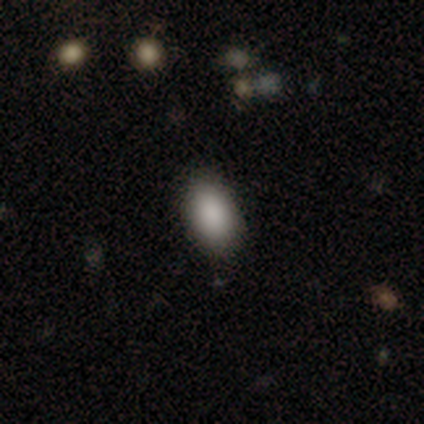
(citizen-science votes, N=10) smooth_or_featured: smooth (p=1.00)
how_rounded: in between (p=0.90) [alt: round p=0.10]
merging: none (p=0.90) [alt: minor disturbance p=0.10]